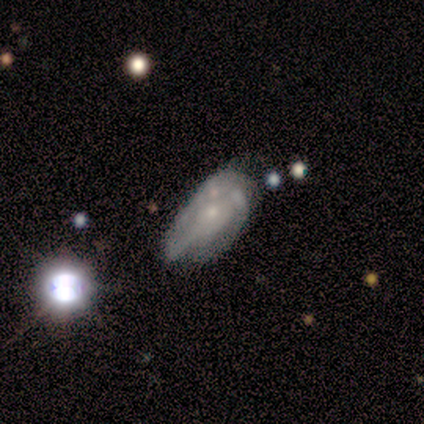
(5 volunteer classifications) Volunteers were most divided on "smooth or featured": featured or disk: 60%, smooth: 40%, star or artifact: 0%. More confident: edge-on disk — no (100%); bar — no (100%); spiral arms — no (100%); bulge size — small (100%); merging — minor disturbance (80%).